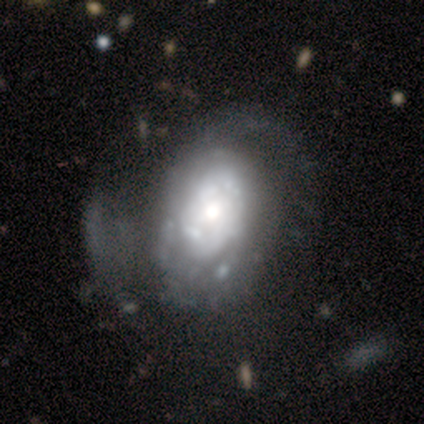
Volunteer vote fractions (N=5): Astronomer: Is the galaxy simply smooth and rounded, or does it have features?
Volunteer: featured or disk — 80%.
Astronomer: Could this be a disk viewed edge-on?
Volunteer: no — 100%.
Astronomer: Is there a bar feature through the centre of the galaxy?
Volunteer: no — 100%.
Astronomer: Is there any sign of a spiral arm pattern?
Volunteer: no — 75%.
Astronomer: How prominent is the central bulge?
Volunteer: dominant — 25%, tied with large, moderate and small at 25%.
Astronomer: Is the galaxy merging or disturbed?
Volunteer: none — 40%, tied with major disturbance at 40%.